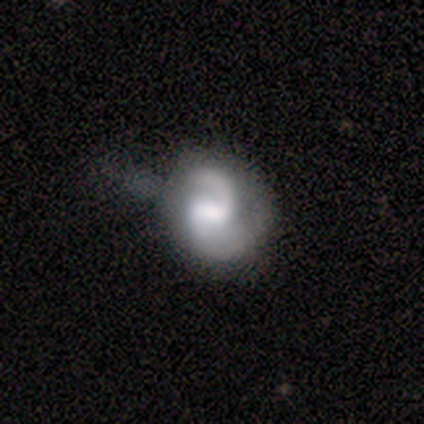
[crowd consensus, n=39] Q: Smooth or featured?
A: featured or disk (90%); runner-up: smooth (10%)
Q: Edge-on disk?
A: no (100%)
Q: Bar?
A: weak (54%); runner-up: no (26%)
Q: Spiral arms?
A: yes (97%); runner-up: no (3%)
Q: Spiral winding?
A: medium (56%); runner-up: loose (32%)
Q: Spiral arm count?
A: 2 (88%); runner-up: can't tell (6%)
Q: Bulge size?
A: moderate (54%); runner-up: none (17%)
Q: Merging?
A: none (33%); tied with: minor disturbance (33%)